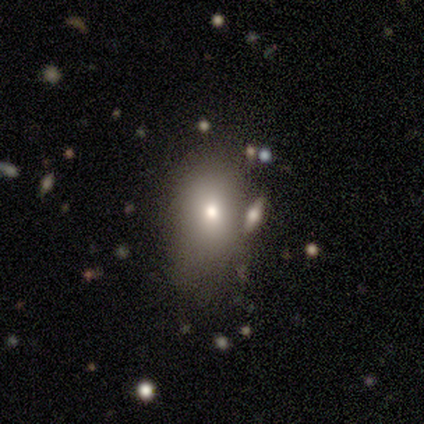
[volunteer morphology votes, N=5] Overall: smooth (80%). How rounded: in between (100%). Merging: none (40%, tied with major disturbance).